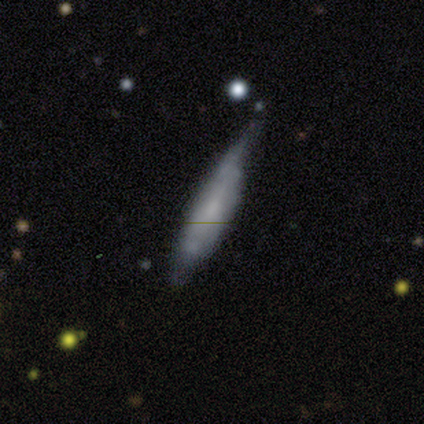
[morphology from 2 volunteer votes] Smooth or featured? smooth (50%, tied with featured or disk)
How rounded? cigar-shaped (100%)
Merging? none (50%, tied with minor disturbance)